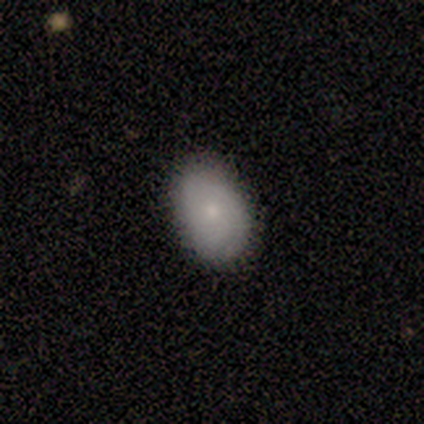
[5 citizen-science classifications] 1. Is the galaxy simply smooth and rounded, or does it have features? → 80% smooth, 20% featured or disk, 0% star or artifact.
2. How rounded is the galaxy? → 75% in between, 25% round, 0% cigar-shaped.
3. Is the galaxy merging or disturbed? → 100% none, 0% minor disturbance, 0% major disturbance, 0% merger.